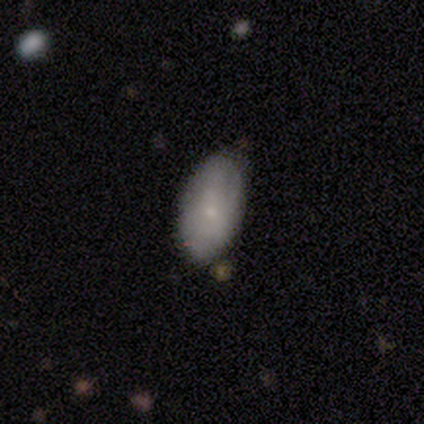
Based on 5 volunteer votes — Smooth or featured: smooth — 60% (featured or disk — 40%)
How rounded: in between — 100%
Merging: none — 100%